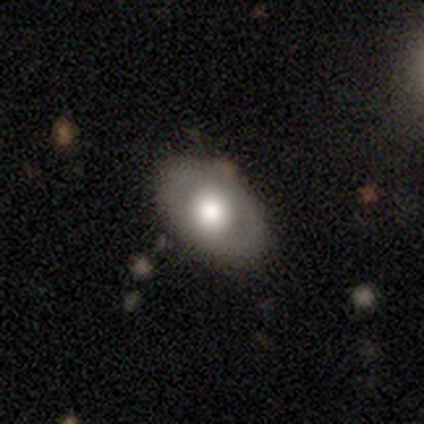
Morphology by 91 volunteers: smooth-or-featured: smooth: 71% | featured or disk: 25% | star or artifact: 3%
  how-rounded: in between: 85% | round: 14% | cigar-shaped: 2%
  merging: none: 78% | minor disturbance: 17% | major disturbance: 5% | merger: 0%